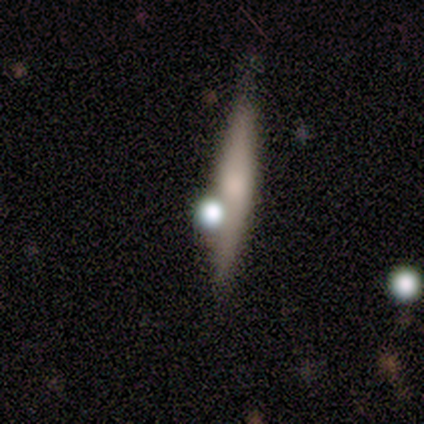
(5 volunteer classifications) Smooth or featured? smooth (80%)
How rounded? cigar-shaped (75%)
Merging? none (60%)